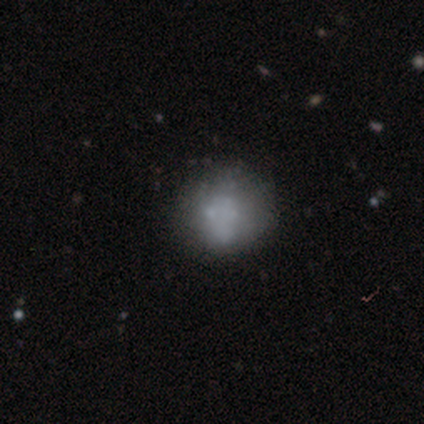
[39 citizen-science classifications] smooth-or-featured: smooth: 51% | featured or disk: 46% | star or artifact: 3%
  how-rounded: round: 70% | in between: 25% | cigar-shaped: 5%
  merging: none: 26% | merger: 16% | minor disturbance: 8% | major disturbance: 8%